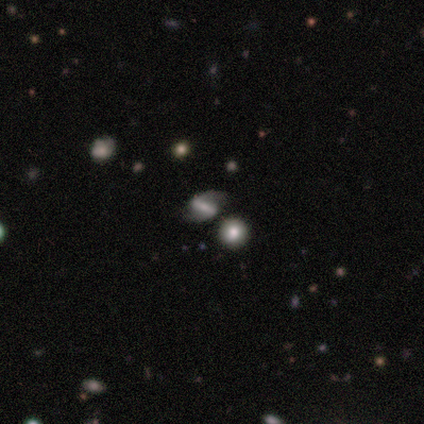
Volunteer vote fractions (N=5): Smooth or featured? featured or disk (60%)
Edge-on disk? no (100%)
Bar? strong (100%)
Spiral arms? yes (67%)
Spiral winding? loose (100%)
Spiral arm count? 2 (100%)
Bulge size? small (67%)
Merging? none (67%)